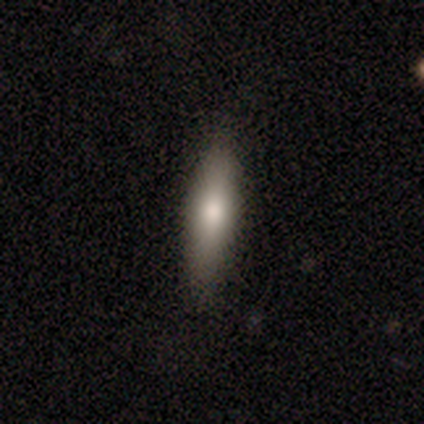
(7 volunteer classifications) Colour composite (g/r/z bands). It shows a smooth galaxy with no disk features (100%) that is in between round and cigar-shaped (57%). Merging: none (100%).